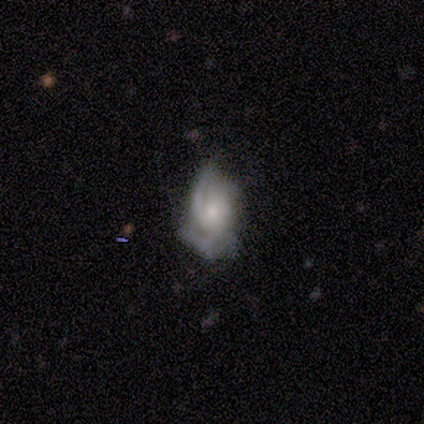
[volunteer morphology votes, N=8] This is likely a featured or disk galaxy (62%). It is clearly not viewed edge-on (100%). Bar: clearly no (80%). Spiral arm pattern: clearly yes (100%). Spiral arm count: marginally 2 (40%, tied with 3). Spiral winding: likely medium (60%). Central bulge: likely small (60%). Merging: likely none (67%).